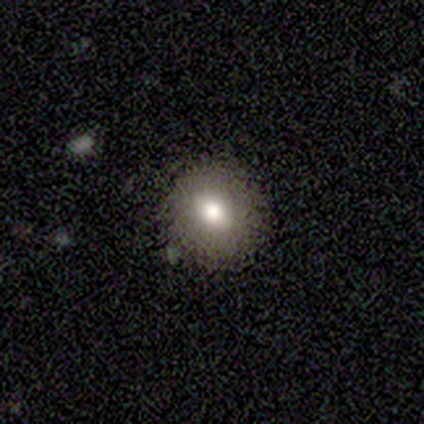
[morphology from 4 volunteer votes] smooth 75%, star or artifact 25%, featured or disk 0%. Down the decision tree: how rounded — round (67%); merging — none (100%).